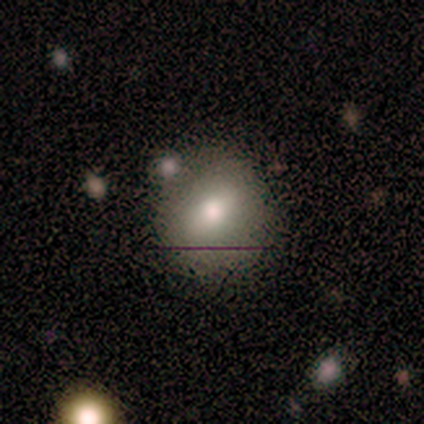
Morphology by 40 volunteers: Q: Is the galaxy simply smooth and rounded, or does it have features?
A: smooth — 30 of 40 (75%).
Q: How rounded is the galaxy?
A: round — 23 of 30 (77%).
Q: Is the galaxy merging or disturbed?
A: none — 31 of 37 (84%).